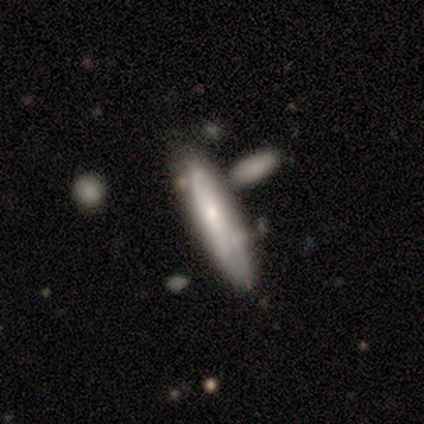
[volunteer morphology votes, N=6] Smooth or featured?
  - smooth: 83% *
  - star or artifact: 17%
  - featured or disk: 0%
How rounded?
  - cigar-shaped: 80% *
  - in between: 20%
  - round: 0%
Merging?
  - none: 60% *
  - minor disturbance: 20%
  - merger: 20%
  - major disturbance: 0%